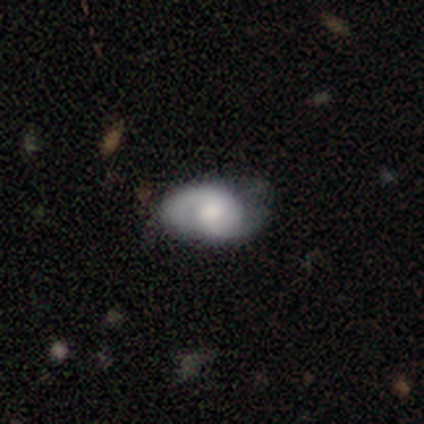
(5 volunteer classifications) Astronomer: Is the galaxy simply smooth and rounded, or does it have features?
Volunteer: featured or disk — 100%.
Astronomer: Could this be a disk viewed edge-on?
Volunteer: no — 80%.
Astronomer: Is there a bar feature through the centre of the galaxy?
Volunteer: no — 75%.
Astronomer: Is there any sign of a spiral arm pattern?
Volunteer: yes — 75%.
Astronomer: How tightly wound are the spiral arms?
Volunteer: tight — 33%, tied with medium and loose at 33%.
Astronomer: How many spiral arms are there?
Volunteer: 2 — 67%.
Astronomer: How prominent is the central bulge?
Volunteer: large — 75%.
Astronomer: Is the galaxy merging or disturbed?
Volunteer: none — 60% (runner-up: major disturbance, 40%).